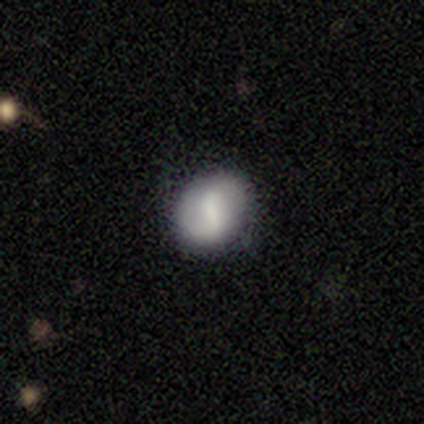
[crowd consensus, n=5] This is clearly a smooth galaxy (80%). How rounded: clearly round (100%). Merging: clearly none (100%).